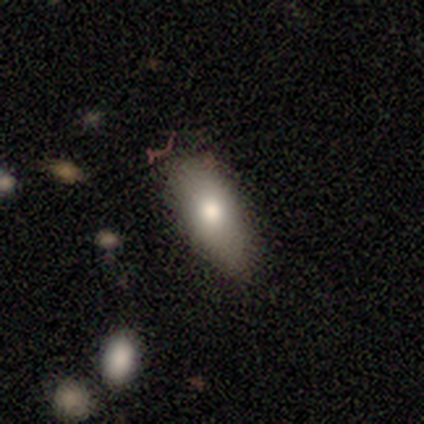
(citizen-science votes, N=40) Morphology: type=smooth (82%); roundness=in between (79%); merging=none (74%).